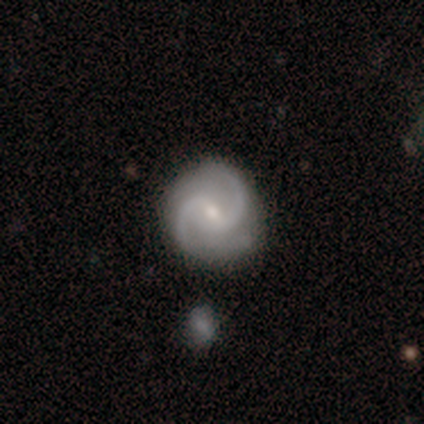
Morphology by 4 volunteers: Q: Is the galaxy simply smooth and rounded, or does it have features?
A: featured or disk — 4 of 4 (100%).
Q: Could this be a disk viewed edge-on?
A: no — 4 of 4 (100%).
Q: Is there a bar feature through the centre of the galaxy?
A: weak — 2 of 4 (50%).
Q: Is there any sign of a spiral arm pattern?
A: yes — 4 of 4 (100%).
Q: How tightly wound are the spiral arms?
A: medium — 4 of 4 (100%).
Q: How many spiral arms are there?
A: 2 — 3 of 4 (75%).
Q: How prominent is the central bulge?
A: small — 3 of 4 (75%).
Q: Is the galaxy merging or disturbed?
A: none — 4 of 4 (100%).